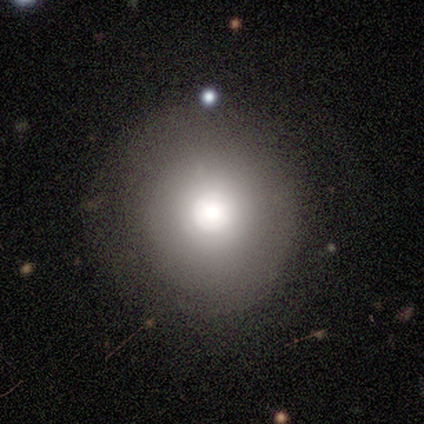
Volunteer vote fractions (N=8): Smooth or featured? 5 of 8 (62%) said smooth. How rounded? 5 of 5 (100%) said round. Merging? 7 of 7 (100%) said none.